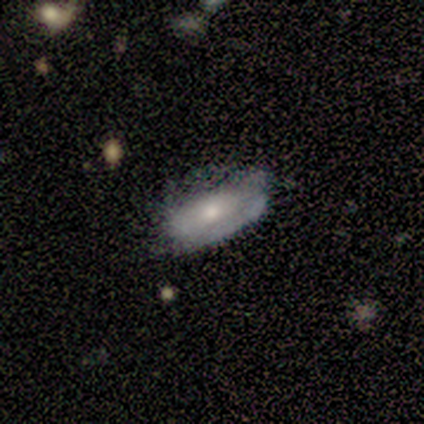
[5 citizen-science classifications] smooth_or_featured: featured or disk (p=0.60) [alt: smooth p=0.40]
disk_edge_on: no (p=0.67) [alt: yes p=0.33]
bar: no (p=1.00)
has_spiral_arms: yes (p=0.50) [tied with: no p=0.50]
spiral_winding: medium (p=1.00)
spiral_arm_count: 1 (p=1.00)
bulge_size: moderate (p=0.50) [tied with: small p=0.50]
merging: none (p=0.40) [tied with: minor disturbance p=0.40]